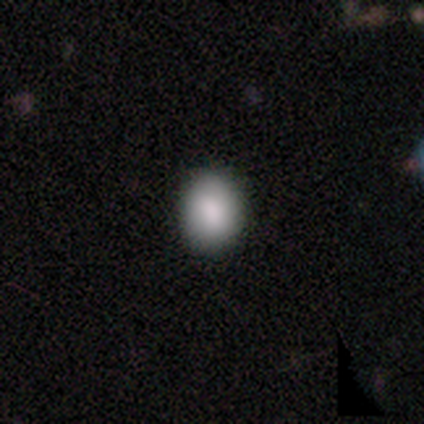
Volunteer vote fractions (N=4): A smooth galaxy with no disk features (75%) that is round (67%). Merging: none (33%, tied with minor disturbance and major disturbance).